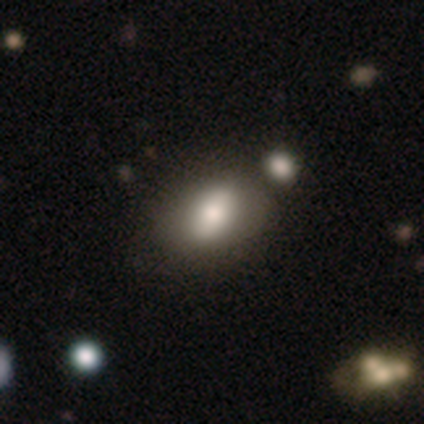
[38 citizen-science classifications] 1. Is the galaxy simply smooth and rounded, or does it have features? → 68% smooth, 21% featured or disk, 11% star or artifact.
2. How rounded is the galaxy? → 96% in between, 4% round, 0% cigar-shaped.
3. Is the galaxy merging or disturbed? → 56% none, 29% merger, 9% minor disturbance, 3% major disturbance.